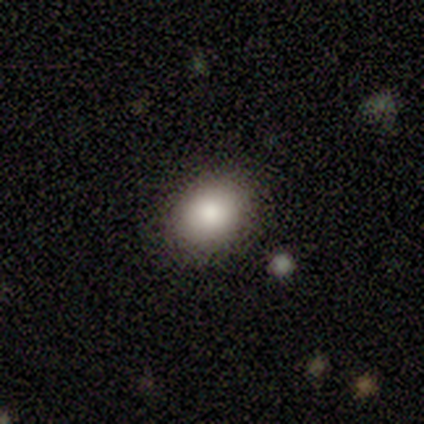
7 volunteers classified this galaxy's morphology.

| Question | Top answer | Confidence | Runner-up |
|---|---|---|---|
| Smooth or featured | smooth | 100% | — |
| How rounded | in between | 57% | round (43%) |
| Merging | none | 100% | — |